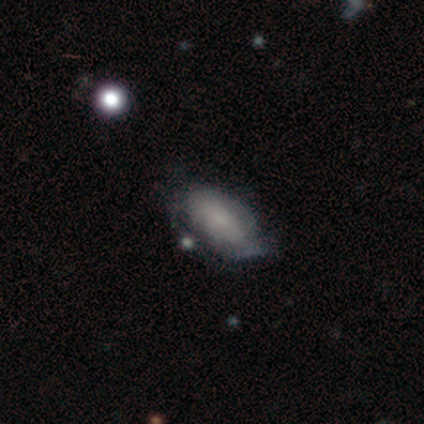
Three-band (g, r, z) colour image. It shows a smooth galaxy with no disk features (56%) that is in between round and cigar-shaped (100%). Merging: none (33%, tied with minor disturbance).